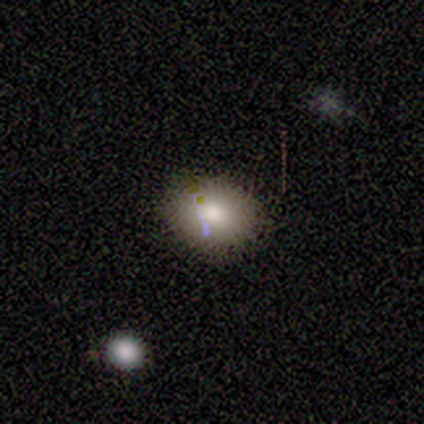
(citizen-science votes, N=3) Overall: smooth (67%; star or artifact 33%). How rounded: in between (100%). Merging: none (100%).